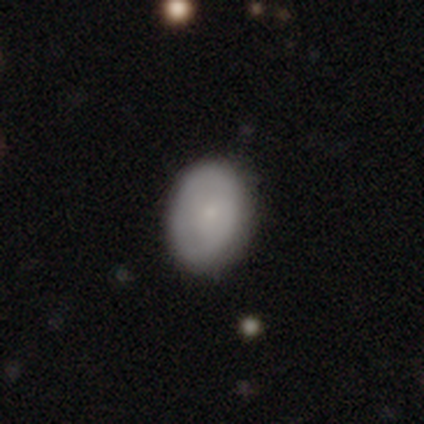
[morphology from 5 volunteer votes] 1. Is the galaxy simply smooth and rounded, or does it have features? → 80% smooth, 20% featured or disk, 0% star or artifact.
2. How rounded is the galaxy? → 75% in between, 25% round, 0% cigar-shaped.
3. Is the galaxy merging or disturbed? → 100% none, 0% minor disturbance, 0% major disturbance, 0% merger.